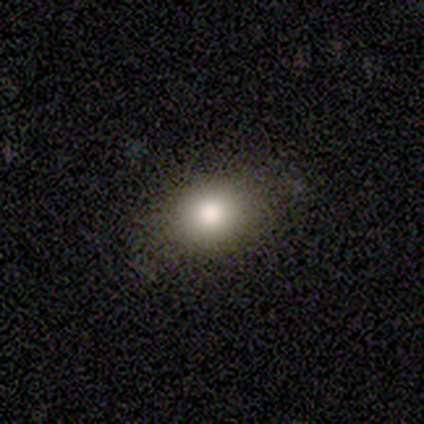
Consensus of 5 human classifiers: Smooth or featured? smooth (60%)
How rounded? in between (100%)
Merging? none (100%)